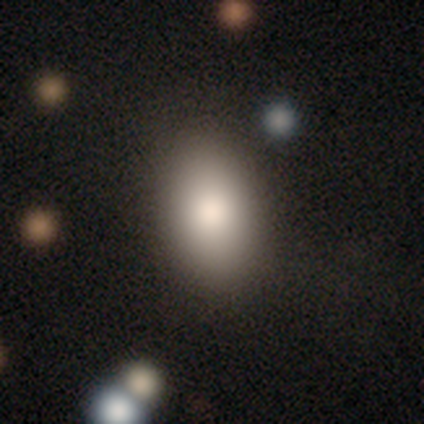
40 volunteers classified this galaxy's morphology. Volunteers were most divided on "smooth or featured": smooth: 78%, featured or disk: 12%, star or artifact: 10%. More confident: how rounded — in between (94%); merging — none (81%).